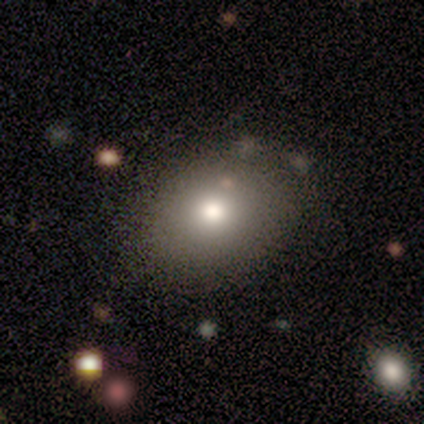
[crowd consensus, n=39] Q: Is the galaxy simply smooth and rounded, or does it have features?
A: smooth — 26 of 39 (67%).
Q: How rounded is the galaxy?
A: in between — 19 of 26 (73%).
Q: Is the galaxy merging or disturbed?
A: none — 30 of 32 (94%).